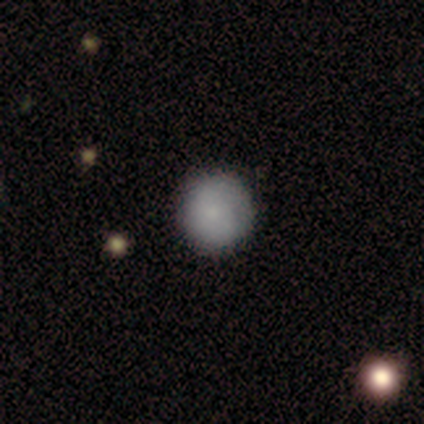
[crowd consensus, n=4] Smooth or featured? 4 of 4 (100%) said smooth. How rounded? 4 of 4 (100%) said round. Merging? 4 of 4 (100%) said none.